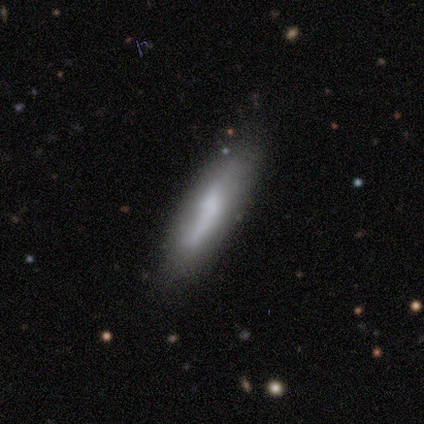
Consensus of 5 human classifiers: A featured or disk galaxy (60%) viewed edge-on (67%) with no central bulge (50%, tied with rounded). Merging: none (80%).